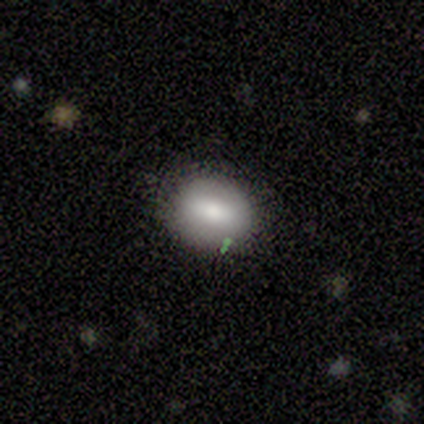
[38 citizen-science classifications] Smooth or featured? smooth (61%)
How rounded? in between (74%)
Merging? none (88%)